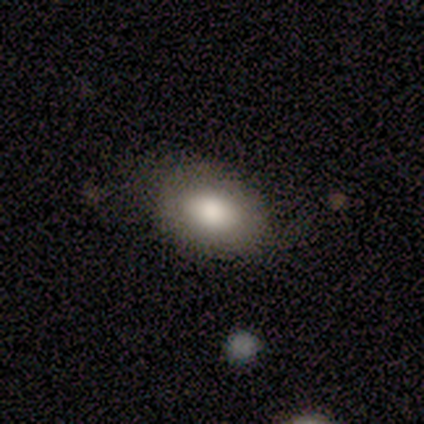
This is likely a smooth galaxy (60%). How rounded: clearly in between (100%). Merging: likely none (67%).